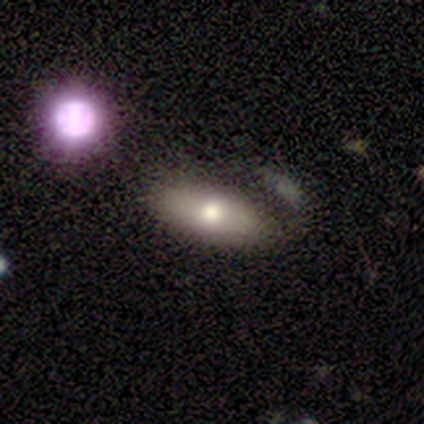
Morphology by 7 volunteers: Q: Smooth or featured?
A: featured or disk (71%); runner-up: smooth (29%)
Q: Edge-on disk?
A: no (60%); runner-up: yes (40%)
Q: Bar?
A: no (100%)
Q: Spiral arms?
A: no (100%)
Q: Bulge size?
A: dominant (33%); tied with: large (33%); moderate (33%)
Q: Merging?
A: none (57%); runner-up: minor disturbance (14%)